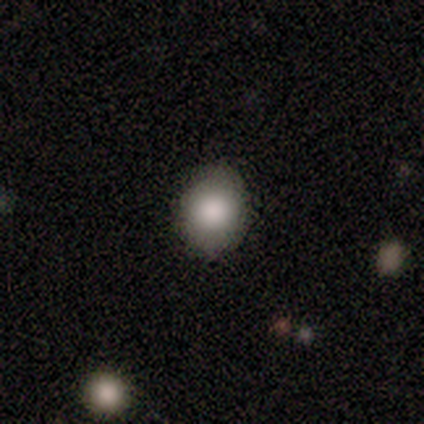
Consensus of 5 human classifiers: Overall: smooth (100%). How rounded: round (60%; in between 40%). Merging: none (80%).